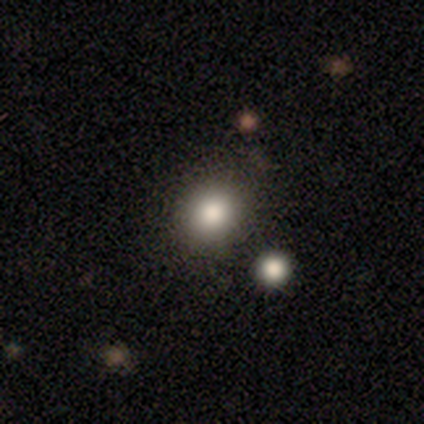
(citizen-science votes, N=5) Q: Smooth or featured?
A: smooth (100%)
Q: How rounded?
A: round (80%); runner-up: in between (20%)
Q: Merging?
A: none (100%)